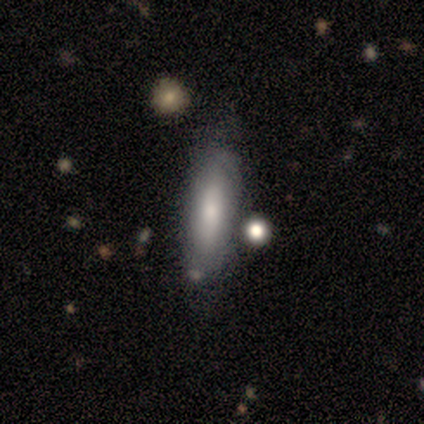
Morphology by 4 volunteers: type=smooth (75%); roundness=in between (100%); merging=none (75%).